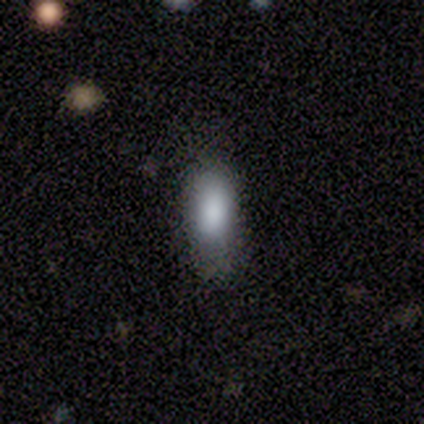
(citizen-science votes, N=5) Morphology: type=smooth (100%); roundness=in between (80%); merging=none (60%).